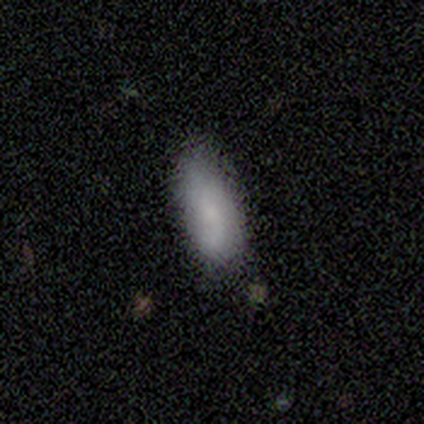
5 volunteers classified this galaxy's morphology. smooth_or_featured: smooth (p=0.80) [alt: featured or disk p=0.20]
how_rounded: in between (p=0.75) [alt: cigar-shaped p=0.25]
merging: none (p=1.00)